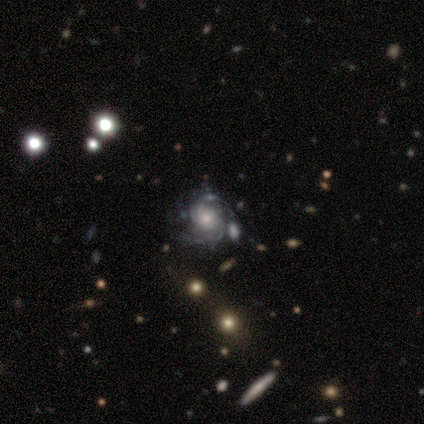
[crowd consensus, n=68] Morphology: type=featured or disk (90%); edge-on=no (97%); bar=no (83%); spiral arms=yes (90%); winding=tight (64%); arm count=can't tell (51%); bulge=moderate (37%); merging=none (43%).